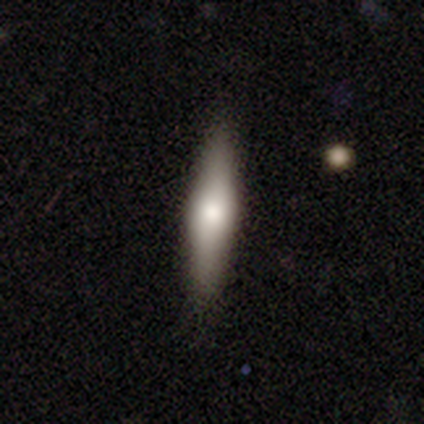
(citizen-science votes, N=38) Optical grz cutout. It shows a featured or disk galaxy (58%) viewed edge-on (68%) with a rounded central bulge (73%). Merging: none (75%).